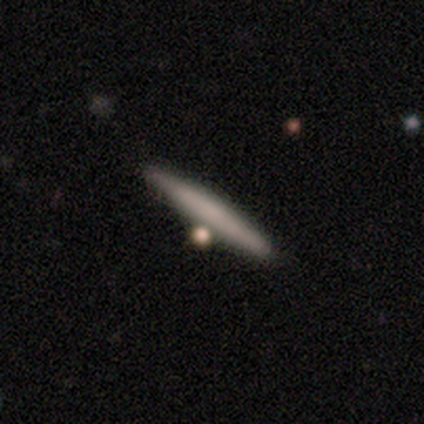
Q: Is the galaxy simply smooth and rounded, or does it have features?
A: smooth — 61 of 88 (69%).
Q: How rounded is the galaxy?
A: cigar-shaped — 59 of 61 (97%).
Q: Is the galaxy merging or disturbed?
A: none — 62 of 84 (74%).